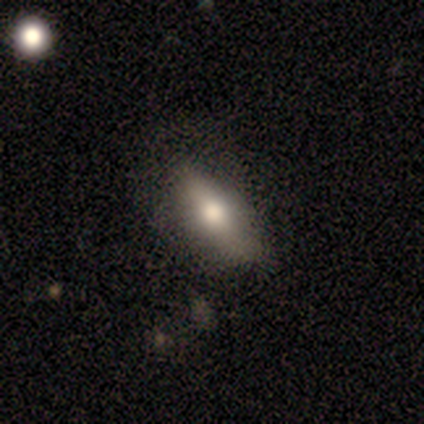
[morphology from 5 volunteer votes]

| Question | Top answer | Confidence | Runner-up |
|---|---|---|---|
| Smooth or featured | featured or disk | 60% | smooth (20%) |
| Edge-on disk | yes | 67% | no (33%) |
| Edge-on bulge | rounded | 100% | — |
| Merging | none | 50% | tied: minor disturbance (50%) |